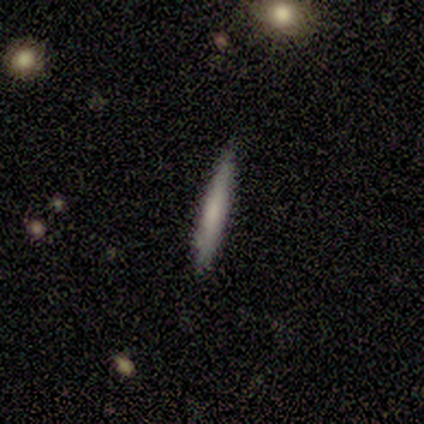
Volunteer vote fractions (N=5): smooth_or_featured: smooth (p=0.60) [alt: featured or disk p=0.20]
how_rounded: cigar-shaped (p=1.00)
merging: none (p=0.75) [alt: minor disturbance p=0.25]